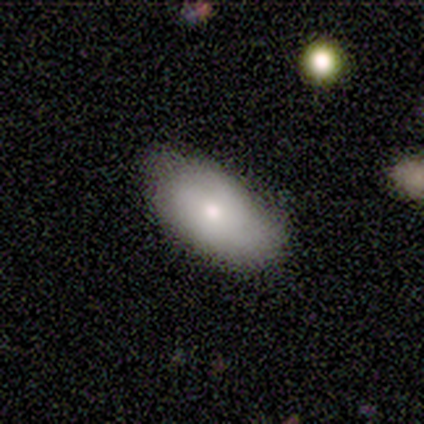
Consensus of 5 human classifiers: This is likely a smooth galaxy (60%). How rounded: clearly in between (100%). Merging: clearly none (100%).